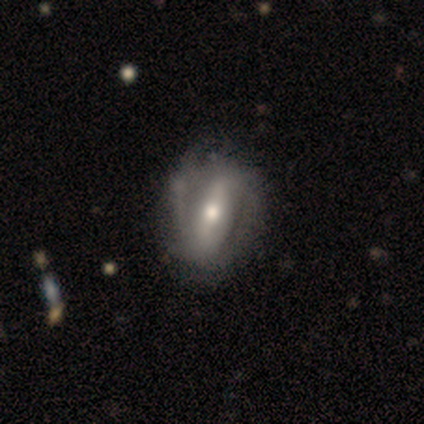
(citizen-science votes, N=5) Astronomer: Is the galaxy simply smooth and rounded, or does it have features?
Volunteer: featured or disk — 60% (runner-up: smooth, 40%).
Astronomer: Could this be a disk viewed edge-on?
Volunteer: no — 100%.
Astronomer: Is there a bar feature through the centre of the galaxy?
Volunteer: strong — 67%.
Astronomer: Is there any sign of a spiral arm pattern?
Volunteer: no — 67%.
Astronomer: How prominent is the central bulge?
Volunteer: large — 67%.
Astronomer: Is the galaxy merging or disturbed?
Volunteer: none — 40%, tied with minor disturbance at 40%.